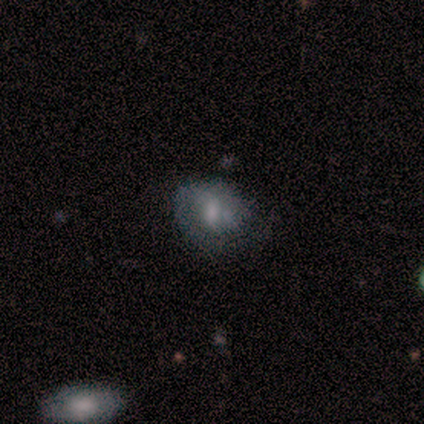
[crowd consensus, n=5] Overall: featured or disk (80%). Edge-on disk: no (100%). Bar: no (75%). Spiral arms: yes (75%). Spiral arm count: 1 (33%, tied with 2 and can't tell). Spiral winding: tight (100%). Bulge size: moderate (50%, tied with small). Merging: none (40%, tied with minor disturbance).